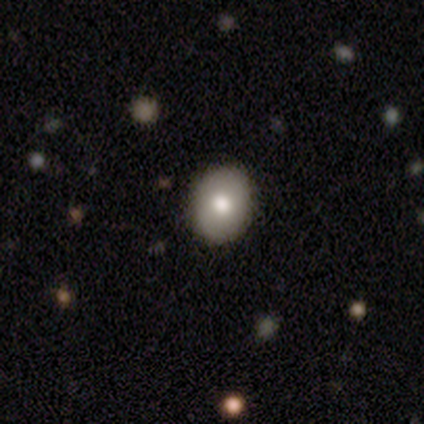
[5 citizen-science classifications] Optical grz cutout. It shows a smooth galaxy with no disk features (100%) that is in between round and cigar-shaped (60%). Merging: none (80%).